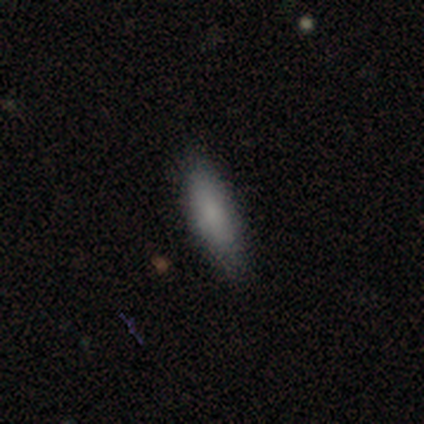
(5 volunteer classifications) Morphology: type=smooth (100%); roundness=in between (60%); merging=none (80%).